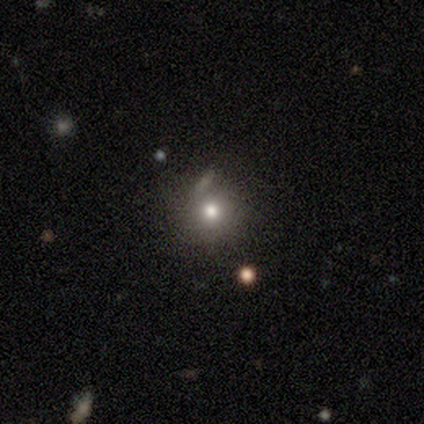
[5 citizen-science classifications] This appears to be a smooth galaxy with no disk features (60%) that is round (100%). Merging: none (25%, tied with minor disturbance, major disturbance and merger).